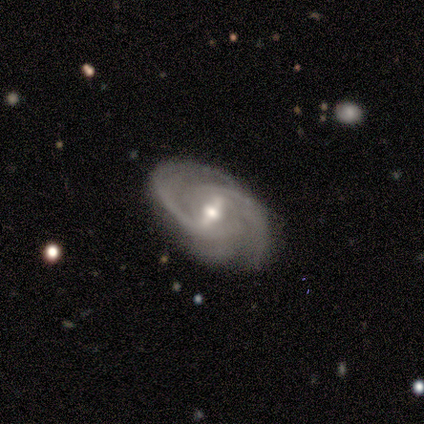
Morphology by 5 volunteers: A featured or disk galaxy (100%) with a strong bar (60%), 2 (80%) tight (60%) spiral arms (100%) and a moderate central bulge (60%). Merging: none (100%).